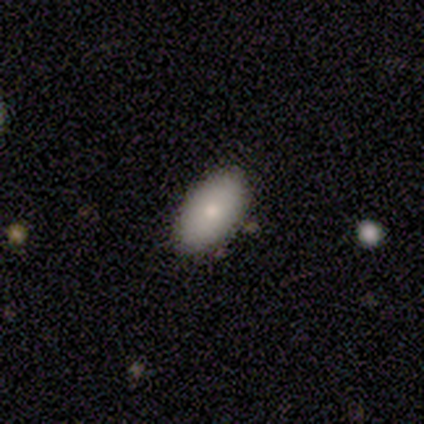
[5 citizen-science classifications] smooth 100%, featured or disk 0%, star or artifact 0%. Down the decision tree: how rounded — in between (100%); merging — none (80%).